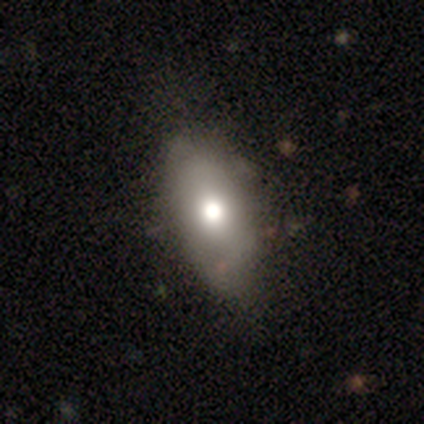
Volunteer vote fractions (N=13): A smooth galaxy with no disk features (69%) that is in between round and cigar-shaped (78%). Merging: none (85%).